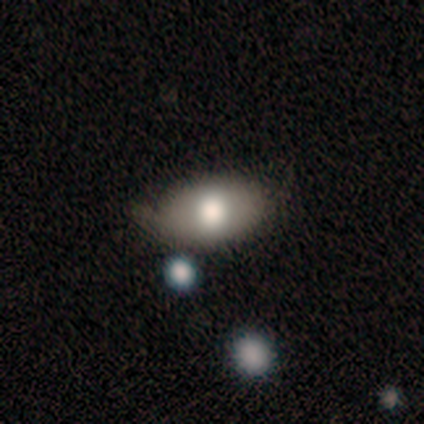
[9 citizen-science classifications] Q: Smooth or featured?
A: smooth (67%); runner-up: star or artifact (22%)
Q: How rounded?
A: in between (100%)
Q: Merging?
A: none (57%); runner-up: minor disturbance (43%)